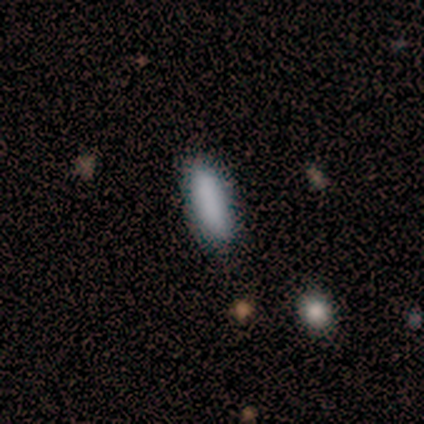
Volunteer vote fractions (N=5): Volunteers were most divided on "how rounded": in between: 60%, cigar-shaped: 40%, round: 0%. More confident: smooth or featured — smooth (100%); merging — none (100%).